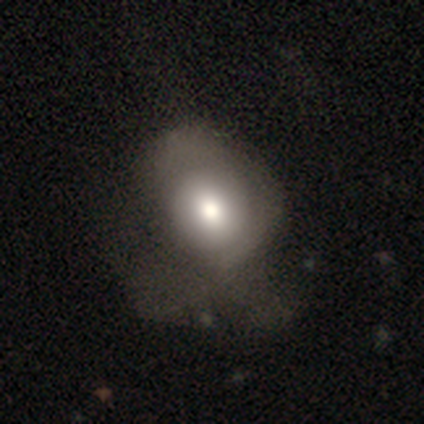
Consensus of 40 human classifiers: This is likely a smooth galaxy (70%). How rounded: possibly round (54%). Merging: marginally major disturbance (41%).